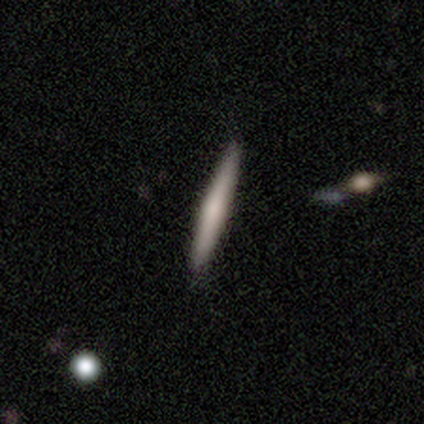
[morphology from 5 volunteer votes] Q: Smooth or featured?
A: smooth (60%); runner-up: featured or disk (40%)
Q: How rounded?
A: cigar-shaped (100%)
Q: Merging?
A: none (100%)